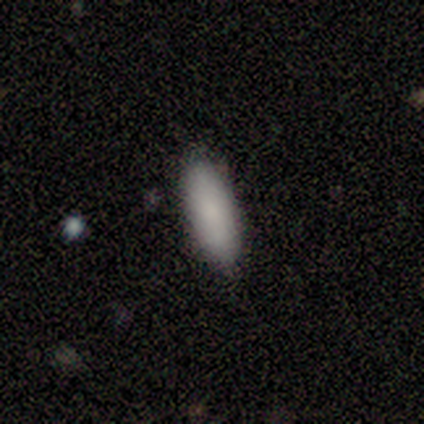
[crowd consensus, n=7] Smooth or featured? smooth (86%)
How rounded? in between (83%)
Merging? none (86%)